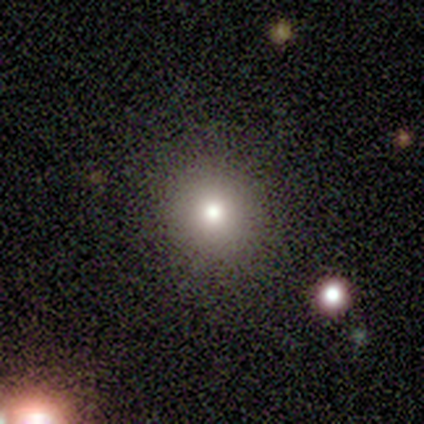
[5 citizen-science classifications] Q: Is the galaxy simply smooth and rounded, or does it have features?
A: smooth — 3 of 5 (60%).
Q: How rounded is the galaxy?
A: round — 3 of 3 (100%).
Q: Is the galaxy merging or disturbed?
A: none — 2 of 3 (67%).